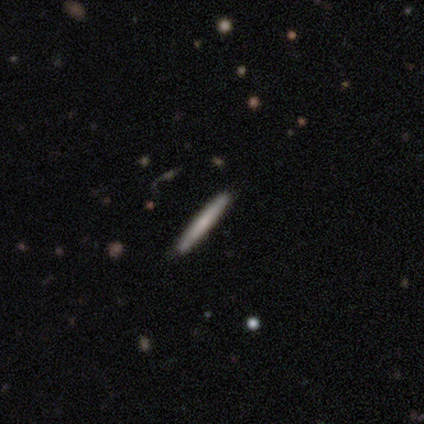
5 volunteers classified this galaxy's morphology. Smooth or featured? smooth (100%)
How rounded? cigar-shaped (100%)
Merging? none (100%)